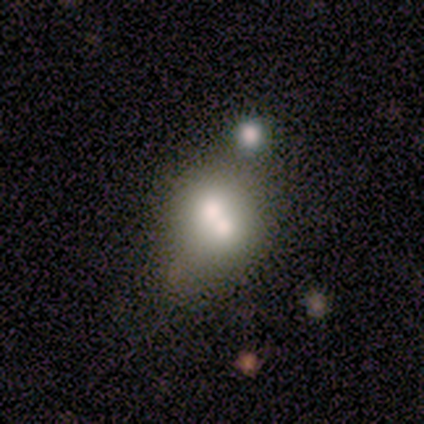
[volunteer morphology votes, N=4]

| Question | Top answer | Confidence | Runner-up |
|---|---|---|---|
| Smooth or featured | featured or disk | 75% | smooth (25%) |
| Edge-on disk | no | 100% | — |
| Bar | no | 100% | — |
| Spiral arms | no | 100% | — |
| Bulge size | moderate | 67% | large (33%) |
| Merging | merger | 100% | — |